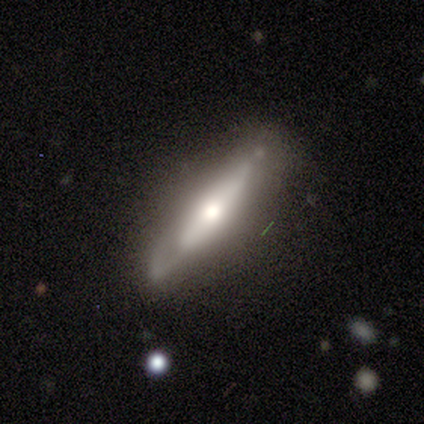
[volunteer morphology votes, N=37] Smooth or featured? 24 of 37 (65%) said featured or disk. Edge-on disk? 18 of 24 (75%) said yes. Edge-on bulge? 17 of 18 (94%) said rounded. Merging? 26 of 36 (72%) said none.